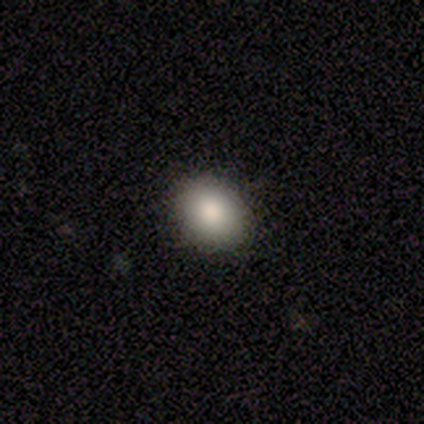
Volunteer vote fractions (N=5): Overall: smooth (100%). How rounded: in between (80%). Merging: none (60%; minor disturbance 40%).